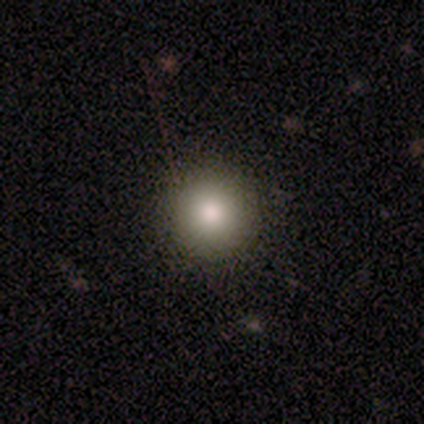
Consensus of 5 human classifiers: Smooth or featured: smooth — 100%
How rounded: round — 100%
Merging: none — 60% (minor disturbance — 40%)